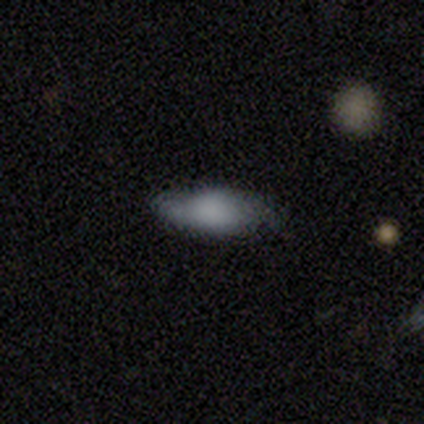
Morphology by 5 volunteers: A featured or disk galaxy (60%) with no bar (100%), 2 (100%) medium (100%) spiral arms (50%, tied with no) and a large central bulge (50%, tied with none).

Vote fractions:
- Smooth or featured? featured or disk: 60% / smooth: 40% / star or artifact: 0%
- Edge-on disk? no: 67% / yes: 33%
- Bar? no: 100% / strong: 0% / weak: 0%
- Spiral arms? yes: 50% (tied) / no: 50% (tied)
- Spiral winding? medium: 100% / tight: 0% / loose: 0%
- Spiral arm count? 2: 100% / 1: 0% / 3: 0% / 4: 0% / more than 4: 0% / can't tell: 0%
- Bulge size? large: 50% (tied) / none: 50% (tied) / dominant: 0% / moderate: 0% / small: 0%
- Merging? minor disturbance: 60% / none: 40% / major disturbance: 0% / merger: 0%